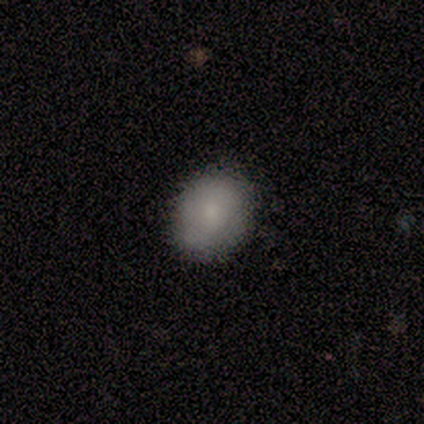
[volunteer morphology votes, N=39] This appears to be a smooth galaxy with no disk features (79%) that is round (61%). Merging: none (79%).